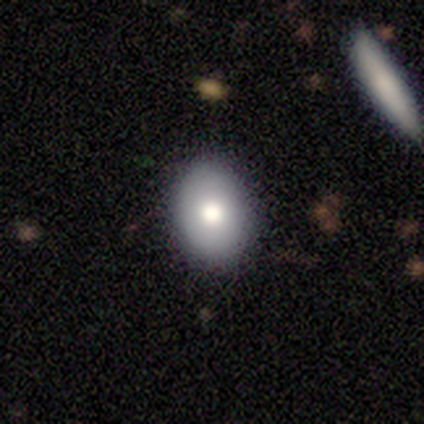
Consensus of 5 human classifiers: Smooth or featured?
  - smooth: 100% *
  - featured or disk: 0%
  - star or artifact: 0%
How rounded?
  - round: 60% *
  - in between: 40%
  - cigar-shaped: 0%
Merging?
  - none: 80% *
  - major disturbance: 20%
  - minor disturbance: 0%
  - merger: 0%